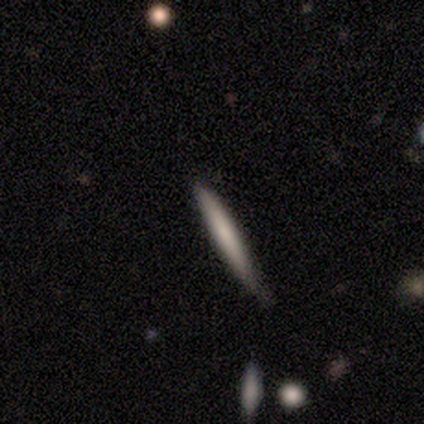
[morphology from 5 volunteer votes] Smooth or featured: smooth — 80% (featured or disk — 20%)
How rounded: cigar-shaped — 100%
Merging: none — 60% (minor disturbance — 40%)